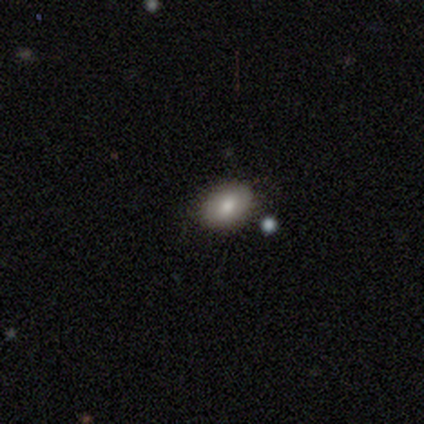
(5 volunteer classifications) Smooth or featured?
  - smooth: 60% *
  - featured or disk: 20%
  - star or artifact: 20%
How rounded?
  - in between: 100% *
  - round: 0%
  - cigar-shaped: 0%
Merging?
  - none: 50% * (tied)
  - minor disturbance: 50% * (tied)
  - major disturbance: 0%
  - merger: 0%